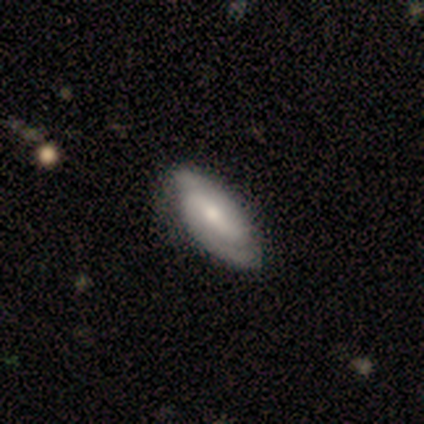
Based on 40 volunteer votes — Morphology: type=featured or disk (80%); edge-on=no (97%); bar=weak (45%); spiral arms=yes (94%); winding=tight (59%); arm count=2 (97%); bulge=moderate (48%); merging=none (50%).